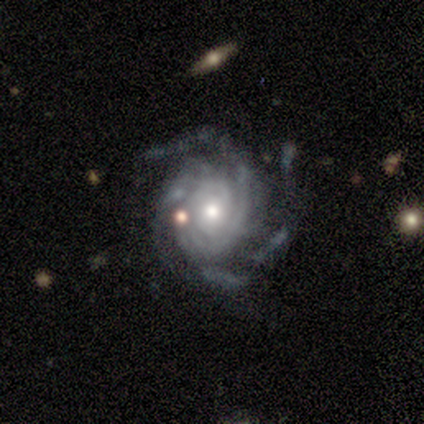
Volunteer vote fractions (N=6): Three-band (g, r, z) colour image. It shows a featured or disk galaxy (100%) with no bar (67%), 3 (33%, tied with more than 4 and can't tell) tight (100%) spiral arms (100%) and a moderate central bulge (50%, tied with small). Merging: none (67%).